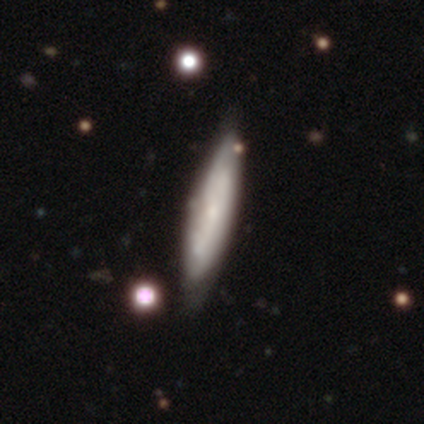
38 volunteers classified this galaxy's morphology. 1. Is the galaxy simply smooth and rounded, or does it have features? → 50% smooth, 45% featured or disk, 5% star or artifact.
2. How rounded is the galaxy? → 84% cigar-shaped, 16% in between, 0% round.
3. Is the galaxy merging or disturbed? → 78% none, 17% minor disturbance, 3% major disturbance, 3% merger.